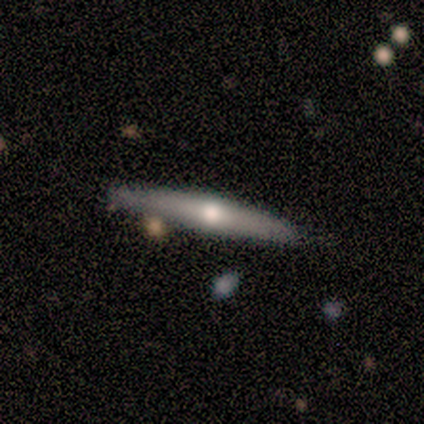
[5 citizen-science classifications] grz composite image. It shows a featured or disk galaxy (60%) viewed edge-on (100%) with a rounded central bulge (100%). Merging: none (100%).